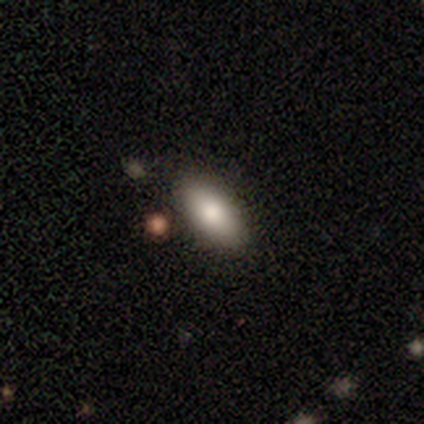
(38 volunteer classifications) smooth-or-featured: smooth: 82% | featured or disk: 13% | star or artifact: 5%
  how-rounded: in between: 90% | cigar-shaped: 10% | round: 0%
  merging: none: 89% | minor disturbance: 8% | merger: 3% | major disturbance: 0%